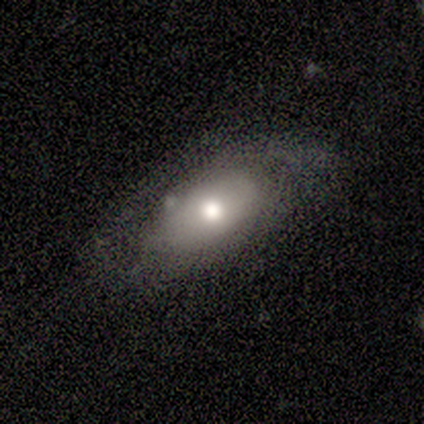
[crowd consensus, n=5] smooth_or_featured: featured or disk (p=0.60) [alt: smooth p=0.40]
disk_edge_on: no (p=0.67) [alt: yes p=0.33]
bar: no (p=1.00)
has_spiral_arms: yes (p=0.50) [tied with: no p=0.50]
spiral_winding: medium (p=1.00)
spiral_arm_count: 2 (p=1.00)
bulge_size: moderate (p=1.00)
merging: minor disturbance (p=0.60) [alt: none p=0.40]